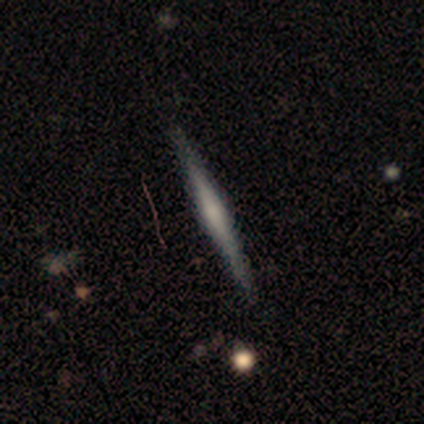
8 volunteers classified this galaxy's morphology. featured or disk 62%, smooth 38%, star or artifact 0%. Down the decision tree: edge-on disk — yes (100%); edge-on bulge — rounded (100%); merging — none (75%).